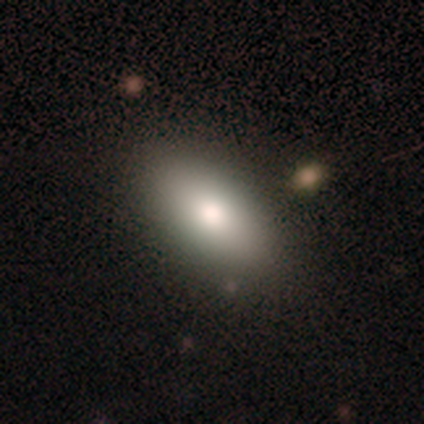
A smooth galaxy with no disk features (100%) that is in between round and cigar-shaped (100%). Merging: none (100%).